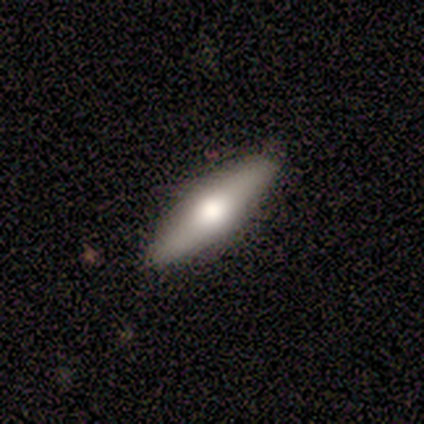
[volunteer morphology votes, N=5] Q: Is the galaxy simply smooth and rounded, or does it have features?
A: featured or disk — 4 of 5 (80%).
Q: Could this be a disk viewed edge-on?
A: yes — 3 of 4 (75%).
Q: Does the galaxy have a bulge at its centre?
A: rounded — 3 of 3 (100%).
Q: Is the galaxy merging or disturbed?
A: none — 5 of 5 (100%).